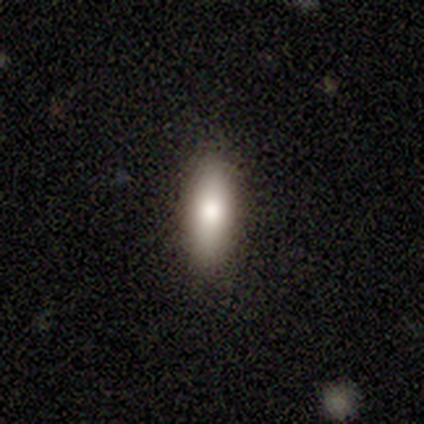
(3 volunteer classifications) A smooth galaxy with no disk features (100%) that is in between round and cigar-shaped (67%). Merging: none (67%).